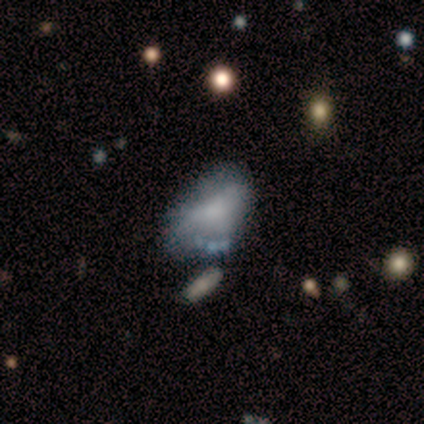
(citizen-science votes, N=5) Smooth or featured: smooth — 40% (tied with featured or disk — 40%)
How rounded: in between — 50% (tied with cigar-shaped — 50%)
Merging: minor disturbance — 50% (tied with major disturbance — 50%)